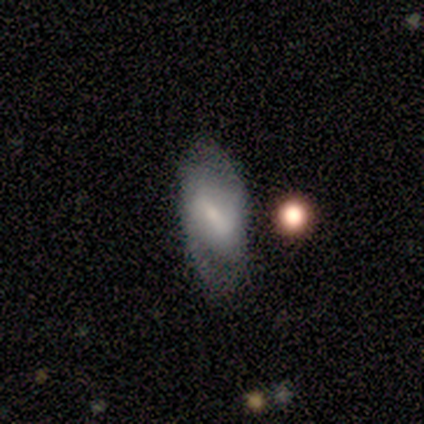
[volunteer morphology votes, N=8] featured or disk 88%, smooth 12%, star or artifact 0%. Down the decision tree: edge-on disk — no (86%); bar — strong (67%); spiral arms — yes (67%); spiral arm count — 2 (100%); spiral winding — medium (75%); bulge size — small (67%); merging — none (62%).